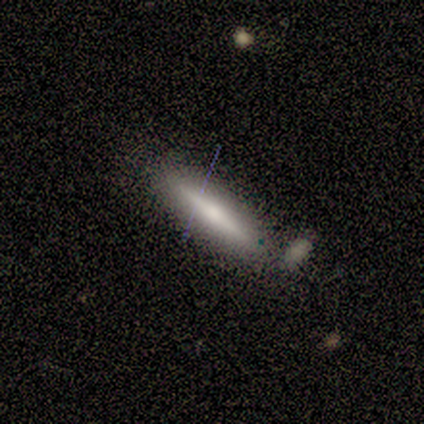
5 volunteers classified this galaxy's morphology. A smooth galaxy with no disk features (60%) that is cigar-shaped (67%).

Vote fractions:
- Smooth or featured? smooth: 60% / featured or disk: 40% / star or artifact: 0%
- How rounded? cigar-shaped: 67% / in between: 33% / round: 0%
- Merging? none: 80% / major disturbance: 20% / minor disturbance: 0% / merger: 0%